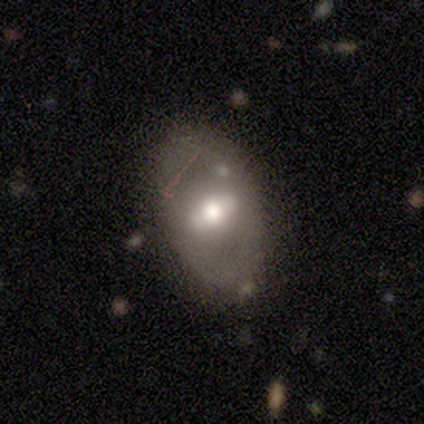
Smooth or featured? 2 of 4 (50%, tied with featured or disk) said smooth. How rounded? 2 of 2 (100%) said in between. Merging? 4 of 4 (100%) said none.